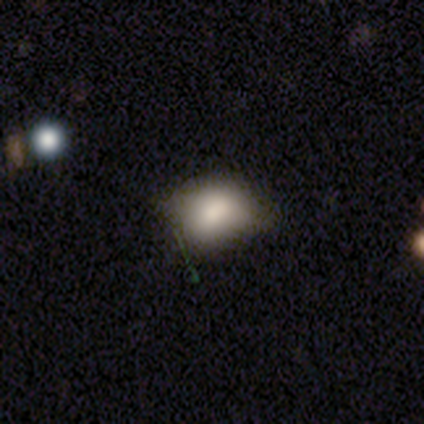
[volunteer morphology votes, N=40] Smooth or featured?
  - smooth: 80% *
  - star or artifact: 12%
  - featured or disk: 8%
How rounded?
  - in between: 66% *
  - round: 31%
  - cigar-shaped: 3%
Merging?
  - none: 57% *
  - minor disturbance: 29%
  - major disturbance: 11%
  - merger: 3%